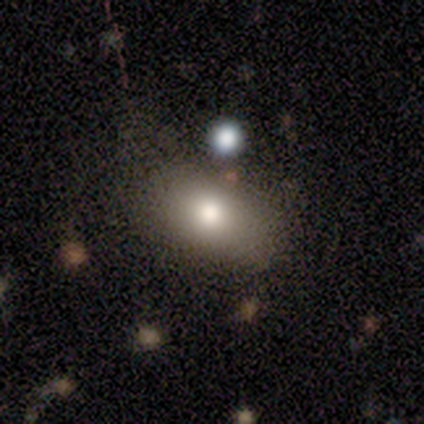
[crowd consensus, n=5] This appears to be a smooth galaxy with no disk features (100%) that is in between round and cigar-shaped (100%). Merging: none (60%).